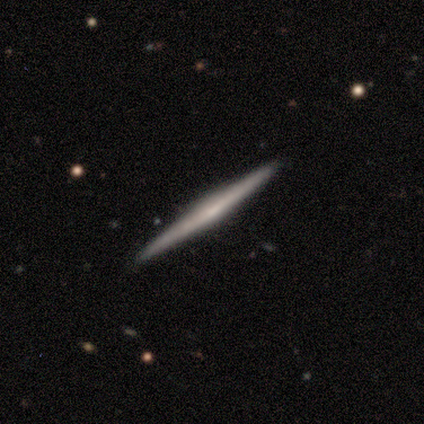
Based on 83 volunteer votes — A featured or disk galaxy (77%) viewed edge-on (98%) with no central bulge (51%).

Vote fractions:
- Smooth or featured? featured or disk: 77% / smooth: 23% / star or artifact: 0%
- Edge-on disk? yes: 98% / no: 2%
- Edge-on bulge? none: 51% / rounded: 32% / boxy: 17%
- Merging? none: 93% / minor disturbance: 6% / merger: 1% / major disturbance: 0%